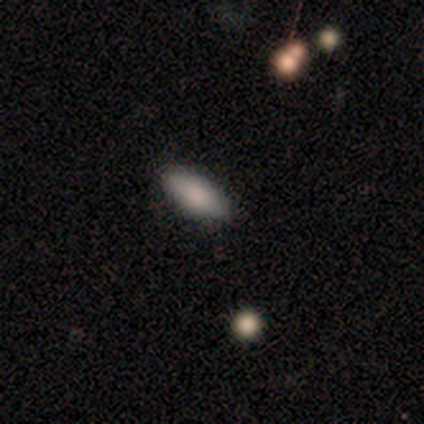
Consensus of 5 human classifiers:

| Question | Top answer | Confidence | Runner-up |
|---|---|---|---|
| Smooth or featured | smooth | 80% | star or artifact (20%) |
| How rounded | in between | 50% | tied: cigar-shaped (50%) |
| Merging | none | 75% | minor disturbance (25%) |